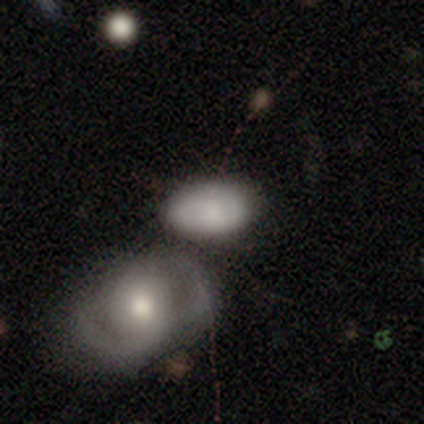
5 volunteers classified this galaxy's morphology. Smooth or featured? featured or disk (60%)
Edge-on disk? no (67%)
Bar? weak (50%, tied with no)
Spiral arms? yes (50%, tied with no)
Spiral winding? loose (100%)
Spiral arm count? 2 (100%)
Bulge size? moderate (50%, tied with none)
Merging? none (60%)